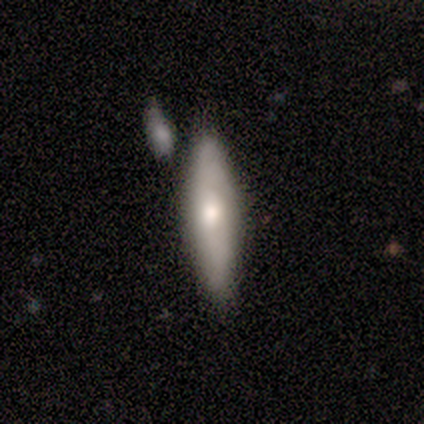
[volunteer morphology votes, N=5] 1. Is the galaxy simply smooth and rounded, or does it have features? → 80% smooth, 20% featured or disk, 0% star or artifact.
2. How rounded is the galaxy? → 50% in between (tied), 50% cigar-shaped (tied), 0% round.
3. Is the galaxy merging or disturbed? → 80% none, 20% minor disturbance, 0% major disturbance, 0% merger.